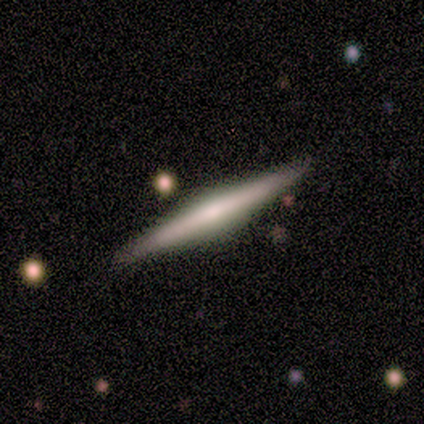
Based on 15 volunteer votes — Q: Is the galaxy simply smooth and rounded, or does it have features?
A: featured or disk — 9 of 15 (60%).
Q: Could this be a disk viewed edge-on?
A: yes — 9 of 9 (100%).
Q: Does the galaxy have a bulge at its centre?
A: rounded — 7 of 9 (78%).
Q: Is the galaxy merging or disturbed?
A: none — 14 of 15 (93%).